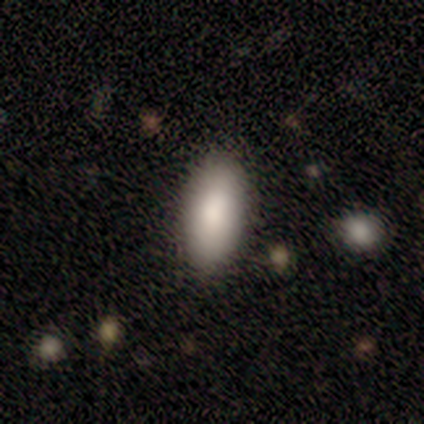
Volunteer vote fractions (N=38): This is clearly a smooth galaxy (89%). How rounded: clearly in between (94%). Merging: likely none (70%).